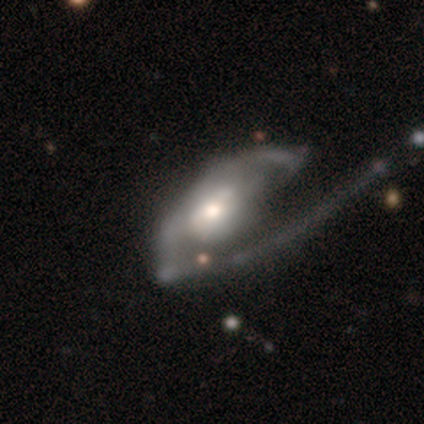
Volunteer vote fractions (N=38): Overall: featured or disk (89%). Edge-on disk: no (97%). Bar: no (48%; weak 36%). Spiral arms: yes (64%; no 36%). Spiral arm count: 2 (38%; 1 33%). Spiral winding: loose (48%; medium 33%). Bulge size: moderate (61%; small 24%). Merging: major disturbance (50%; none 21%).